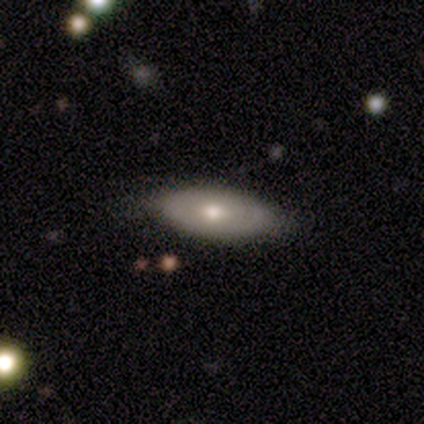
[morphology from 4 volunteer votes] A smooth galaxy with no disk features (75%) that is in between round and cigar-shaped (67%).

Vote fractions:
- Smooth or featured? smooth: 75% / featured or disk: 25% / star or artifact: 0%
- How rounded? in between: 67% / cigar-shaped: 33% / round: 0%
- Merging? none: 75% / minor disturbance: 25% / major disturbance: 0% / merger: 0%